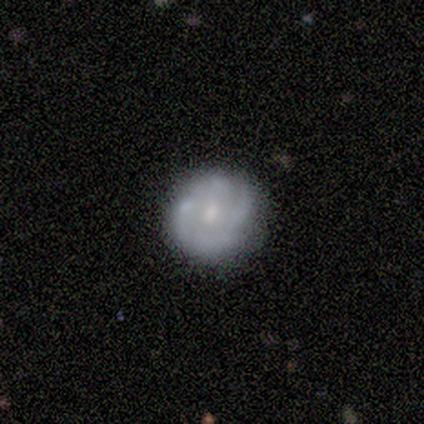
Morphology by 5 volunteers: Smooth or featured?
  - featured or disk: 80% *
  - smooth: 20%
  - star or artifact: 0%
Edge-on disk?
  - no: 100% *
  - yes: 0%
Bar?
  - weak: 50% * (tied)
  - no: 50% * (tied)
  - strong: 0%
Spiral arms?
  - yes: 75% *
  - no: 25%
Spiral winding?
  - tight: 33% * (tied)
  - medium: 33% * (tied)
  - loose: 33% * (tied)
Spiral arm count?
  - 4: 67% *
  - can't tell: 33%
  - 1: 0%
  - 2: 0%
  - 3: 0%
  - more than 4: 0%
Bulge size?
  - moderate: 50% *
  - large: 25%
  - small: 25%
  - dominant: 0%
  - none: 0%
Merging?
  - none: 80% *
  - minor disturbance: 20%
  - major disturbance: 0%
  - merger: 0%